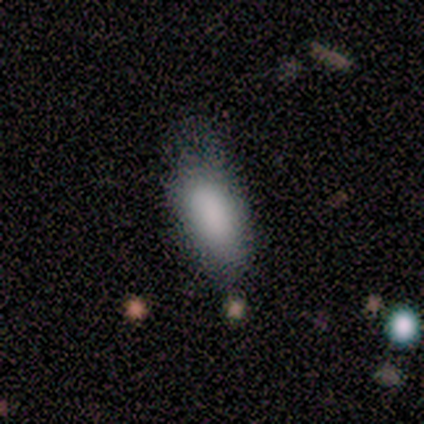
Morphology: type=smooth (100%); roundness=in between (100%); merging=none (50%, tied with minor disturbance).